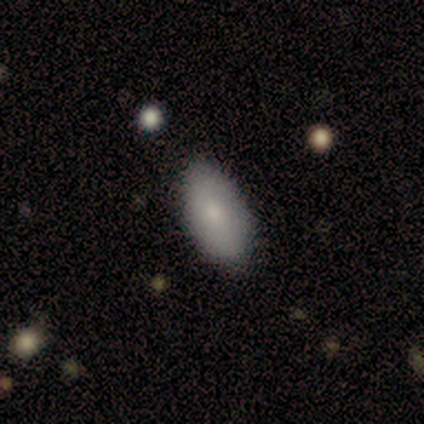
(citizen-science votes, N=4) Overall: smooth (100%). How rounded: in between (100%). Merging: none (100%).